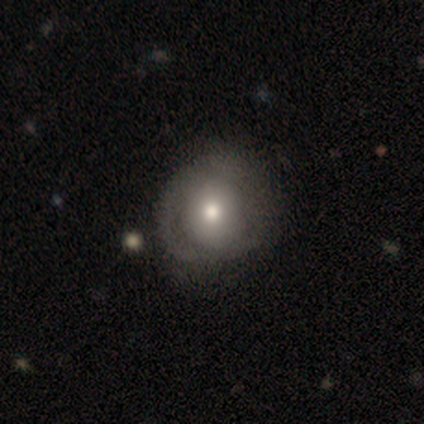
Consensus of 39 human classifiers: A smooth galaxy with no disk features (51%) that is round (65%).

Vote fractions:
- Smooth or featured? smooth: 51% / featured or disk: 46% / star or artifact: 3%
- How rounded? round: 65% / in between: 35% / cigar-shaped: 0%
- Merging? none: 45% / minor disturbance: 16% / major disturbance: 13% / merger: 0%